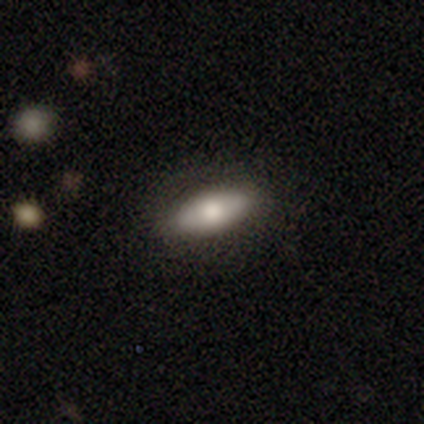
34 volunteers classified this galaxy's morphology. smooth_or_featured: smooth (p=0.68) [alt: featured or disk p=0.29]
how_rounded: in between (p=0.65) [alt: cigar-shaped p=0.30]
merging: none (p=0.85) [alt: minor disturbance p=0.12]